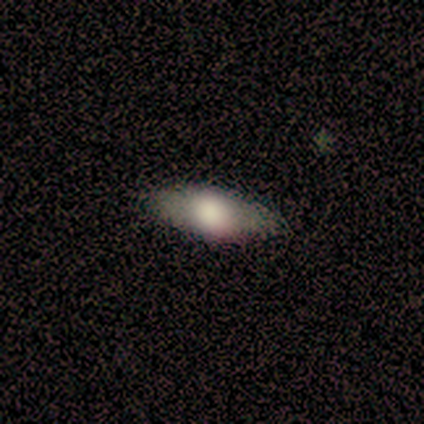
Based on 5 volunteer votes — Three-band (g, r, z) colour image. It shows a smooth galaxy with no disk features (60%) that is cigar-shaped (100%). Merging: none (80%).